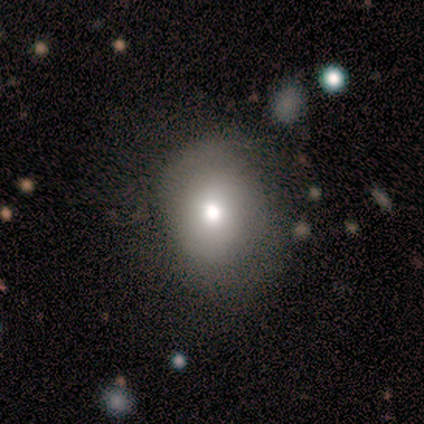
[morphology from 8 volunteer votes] A smooth galaxy with no disk features (75%) that is round (67%). Merging: major disturbance (50%).